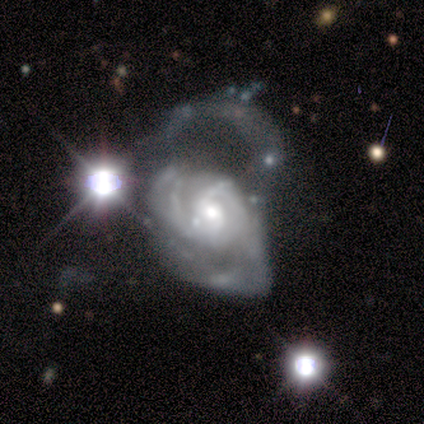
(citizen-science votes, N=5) Q: Smooth or featured?
A: smooth (40%); tied with: featured or disk (40%)
Q: How rounded?
A: in between (100%)
Q: Merging?
A: major disturbance (100%)